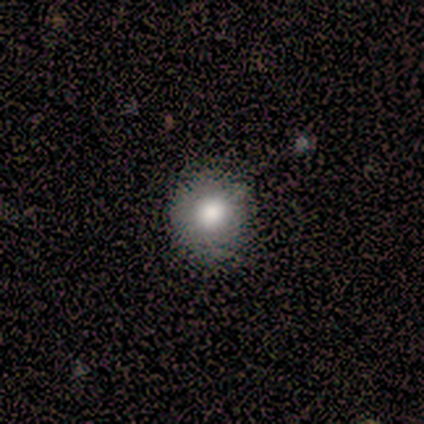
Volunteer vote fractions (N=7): Overall: smooth (57%; star or artifact 29%). How rounded: round (50%; in between 25%). Merging: none (80%).